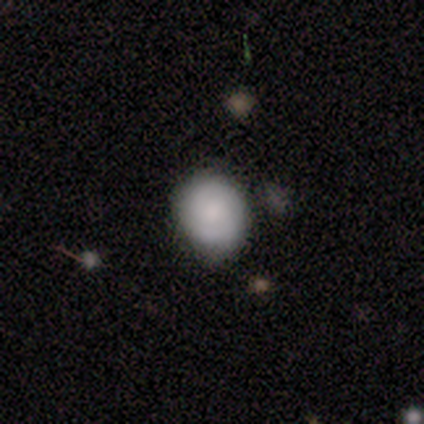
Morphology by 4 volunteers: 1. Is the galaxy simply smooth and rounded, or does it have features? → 75% smooth, 25% star or artifact, 0% featured or disk.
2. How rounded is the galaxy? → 67% round, 33% in between, 0% cigar-shaped.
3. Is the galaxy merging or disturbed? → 67% none, 33% major disturbance, 0% minor disturbance, 0% merger.